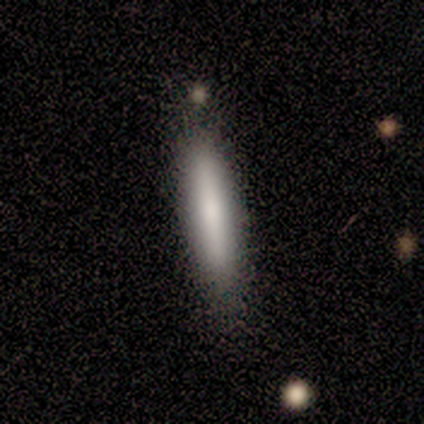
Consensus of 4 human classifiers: A smooth galaxy with no disk features (100%) that is cigar-shaped (75%). Merging: none (75%).